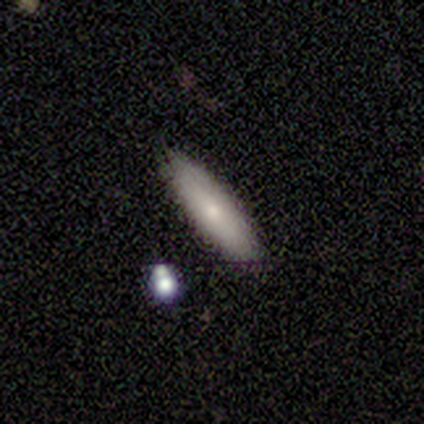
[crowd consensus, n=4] This is clearly a smooth galaxy (100%). How rounded: likely in between (75%). Merging: clearly none (100%).